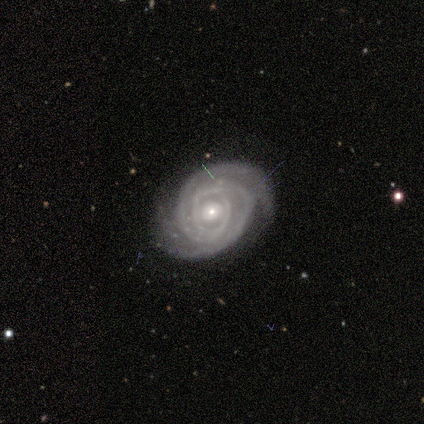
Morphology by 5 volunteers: type=featured or disk (60%); edge-on=no (100%); bar=no (100%); spiral arms=yes (100%); winding=tight (100%); arm count=2 (100%); bulge=small (67%); merging=none (100%).